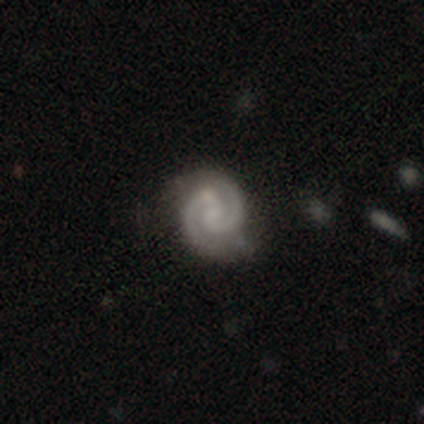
Smooth or featured? 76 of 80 (95%) said featured or disk. Edge-on disk? 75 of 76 (99%) said no. Bar? 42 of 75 (56%) said no. Spiral arms? 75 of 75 (100%) said yes. Spiral winding? 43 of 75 (57%) said tight. Spiral arm count? 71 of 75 (95%) said 2. Bulge size? 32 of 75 (43%) said none. Merging? 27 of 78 (35%) said none.